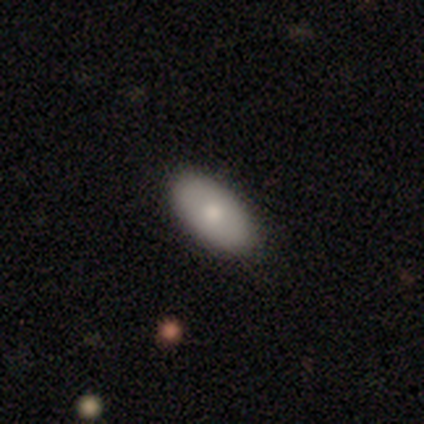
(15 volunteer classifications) Volunteers were most divided on "smooth or featured": smooth: 60%, featured or disk: 33%, star or artifact: 7%. More confident: how rounded — in between (100%); merging — none (93%).